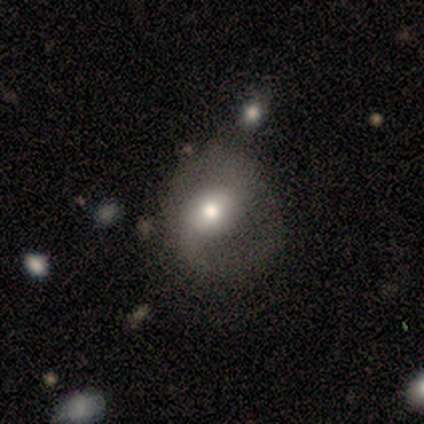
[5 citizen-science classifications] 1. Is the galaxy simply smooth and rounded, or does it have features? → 60% smooth, 40% featured or disk, 0% star or artifact.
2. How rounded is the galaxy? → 67% round, 33% in between, 0% cigar-shaped.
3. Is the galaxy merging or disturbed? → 80% none, 20% minor disturbance, 0% major disturbance, 0% merger.